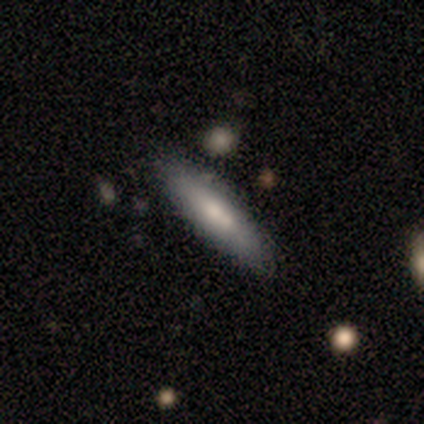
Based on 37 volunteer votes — Volunteers were most divided on "merging": none: 78%, minor disturbance: 11%, merger: 11%, major disturbance: 0%. More confident: how rounded — cigar-shaped (84%); smooth or featured — smooth (84%).